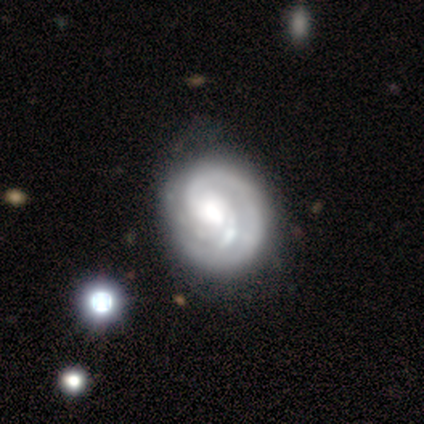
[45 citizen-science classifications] Smooth or featured: featured or disk — 84% (smooth — 16%)
Edge-on disk: no — 100%
Bar: no — 74% (weak — 24%)
Spiral arms: yes — 97% (no — 3%)
Spiral winding: tight — 62% (medium — 35%)
Spiral arm count: 2 — 57% (1 — 38%)
Bulge size: moderate — 45% (large — 34%)
Merging: none — 56% (minor disturbance — 27%)